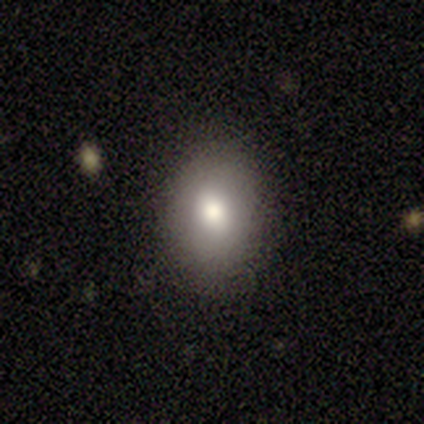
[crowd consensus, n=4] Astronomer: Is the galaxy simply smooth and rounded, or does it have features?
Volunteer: smooth — 50%, tied with featured or disk at 50%.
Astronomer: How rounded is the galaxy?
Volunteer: round — 50%, tied with in between at 50%.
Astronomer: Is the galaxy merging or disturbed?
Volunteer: none — 100%.